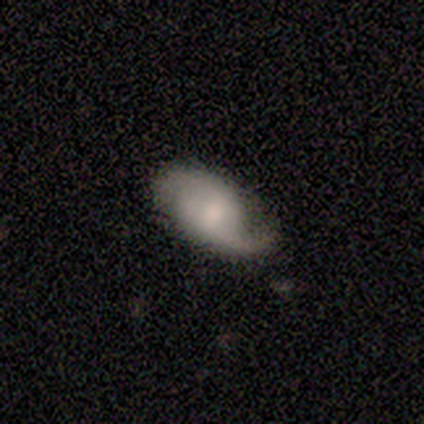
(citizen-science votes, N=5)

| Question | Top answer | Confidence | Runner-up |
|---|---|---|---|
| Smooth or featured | featured or disk | 80% | star or artifact (20%) |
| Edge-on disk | no | 100% | — |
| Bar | no | 75% | weak (25%) |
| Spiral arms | yes | 100% | — |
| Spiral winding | loose | 50% | tight (25%) |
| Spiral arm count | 2 | 100% | — |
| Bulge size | moderate | 75% | small (25%) |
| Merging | none | 75% | minor disturbance (25%) |